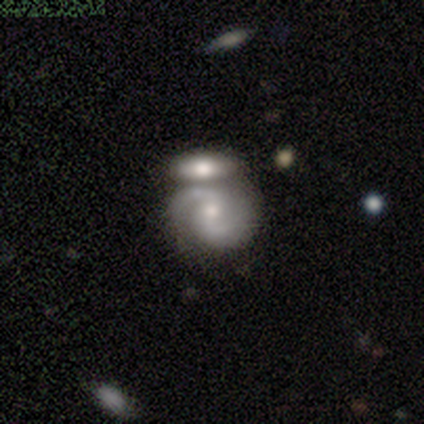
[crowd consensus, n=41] Morphology: type=featured or disk (78%); edge-on=no (97%); bar=no (58%); spiral arms=yes (97%); winding=medium (50%); arm count=2 (97%); bulge=small (55%); merging=merger (66%).